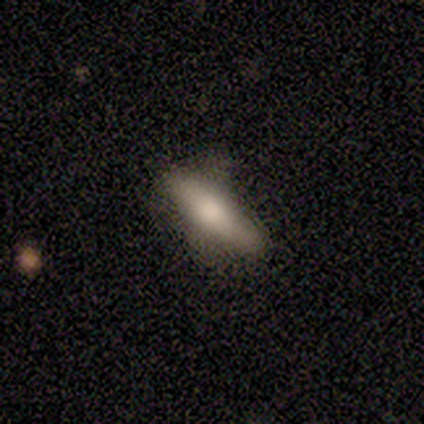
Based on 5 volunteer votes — smooth-or-featured: smooth: 100% | featured or disk: 0% | star or artifact: 0%
  how-rounded: in between: 80% | cigar-shaped: 20% | round: 0%
  merging: none: 80% | minor disturbance: 20% | major disturbance: 0% | merger: 0%